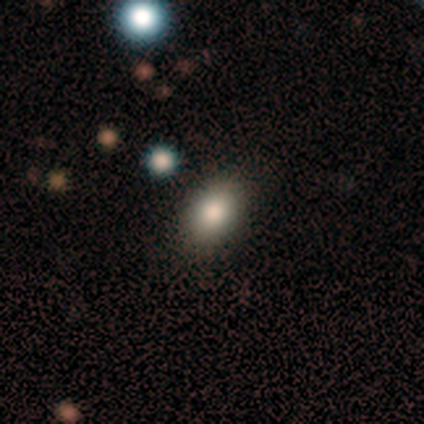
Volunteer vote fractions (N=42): Overall: smooth (79%). How rounded: in between (70%). Merging: none (87%).